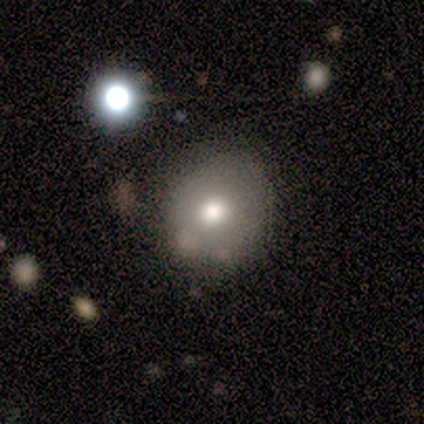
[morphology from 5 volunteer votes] Smooth or featured? 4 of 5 (80%) said smooth. How rounded? 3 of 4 (75%) said round. Merging? 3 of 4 (75%) said none.